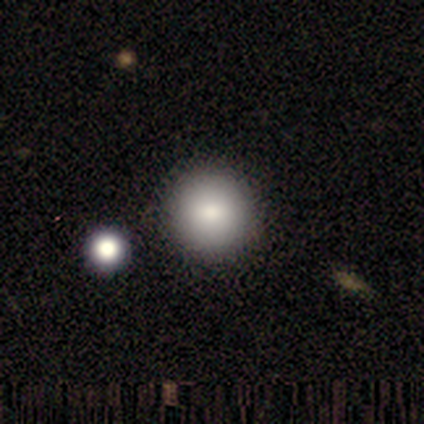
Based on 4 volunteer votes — Smooth or featured? 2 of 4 (50%, tied with star or artifact) said smooth. How rounded? 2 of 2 (100%) said round. Merging? 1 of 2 (50%, tied with minor disturbance) said none.